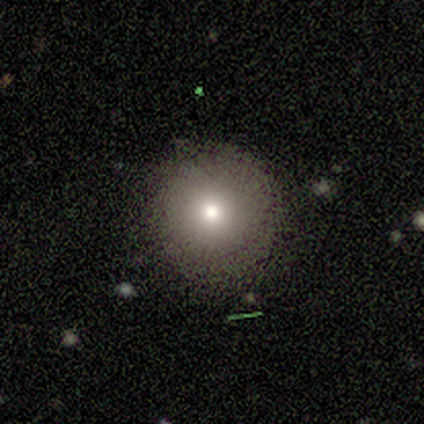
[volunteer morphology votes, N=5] Smooth or featured? smooth (80%)
How rounded? round (100%)
Merging? none (100%)